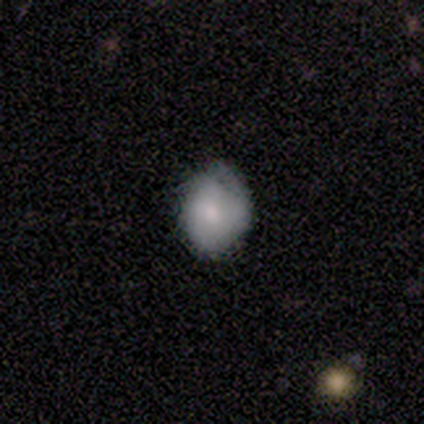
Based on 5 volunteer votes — Smooth or featured?
  - smooth: 60% *
  - featured or disk: 40%
  - star or artifact: 0%
How rounded?
  - in between: 67% *
  - round: 33%
  - cigar-shaped: 0%
Merging?
  - none: 60% *
  - minor disturbance: 40%
  - major disturbance: 0%
  - merger: 0%